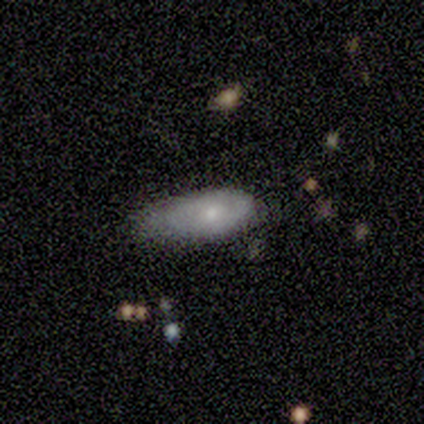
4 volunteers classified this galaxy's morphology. Q: Smooth or featured?
A: featured or disk (50%); runner-up: smooth (25%)
Q: Edge-on disk?
A: no (100%)
Q: Bar?
A: no (100%)
Q: Spiral arms?
A: no (100%)
Q: Bulge size?
A: small (50%); tied with: none (50%)
Q: Merging?
A: minor disturbance (67%); runner-up: none (33%)